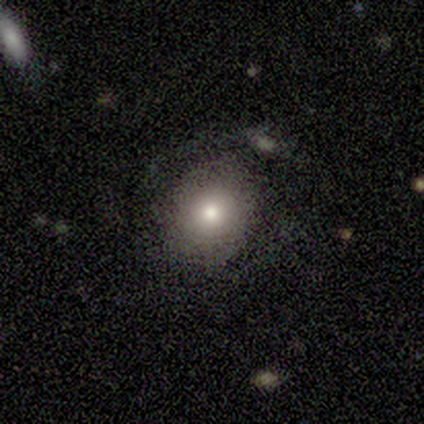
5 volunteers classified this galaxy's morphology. Smooth or featured? smooth (80%)
How rounded? round (100%)
Merging? none (80%)